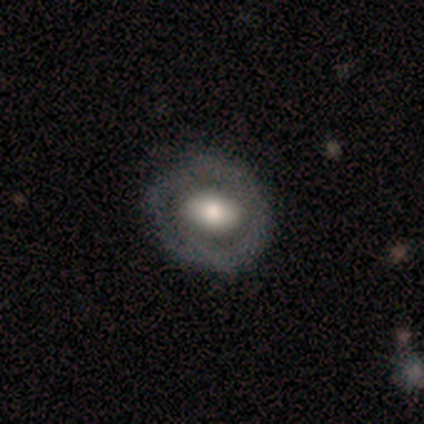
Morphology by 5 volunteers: Smooth or featured: featured or disk — 60% (smooth — 40%)
Edge-on disk: no — 100%
Bar: strong — 33% (tied with weak — 33%; no — 33%)
Spiral arms: no — 100%
Bulge size: moderate — 67% (large — 33%)
Merging: none — 60% (minor disturbance — 20%)